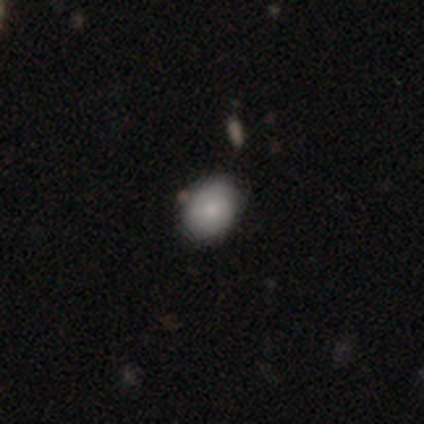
A smooth galaxy with no disk features (100%) that is in between round and cigar-shaped (100%). Merging: none (100%).